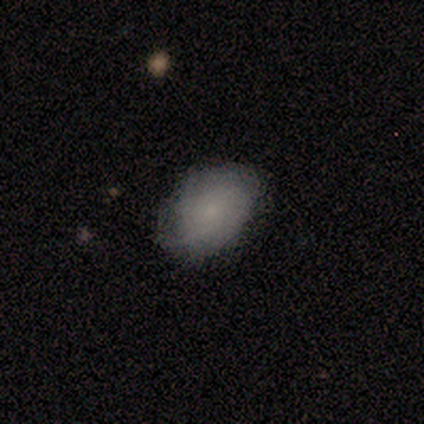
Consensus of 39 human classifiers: This appears to be a smooth galaxy with no disk features (49%) that is in between round and cigar-shaped (84%). Merging: none (69%).